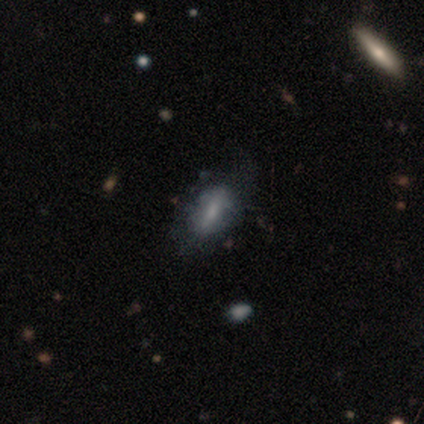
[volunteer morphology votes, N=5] smooth 60%, featured or disk 20%, star or artifact 20%. Down the decision tree: how rounded — in between (67%); merging — major disturbance (50%).